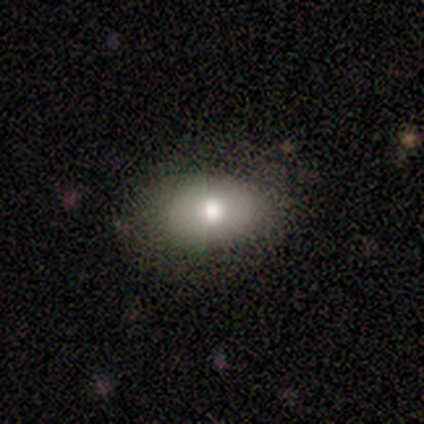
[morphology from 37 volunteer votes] This appears to be a smooth galaxy with no disk features (59%) that is in between round and cigar-shaped (100%). Merging: none (76%).